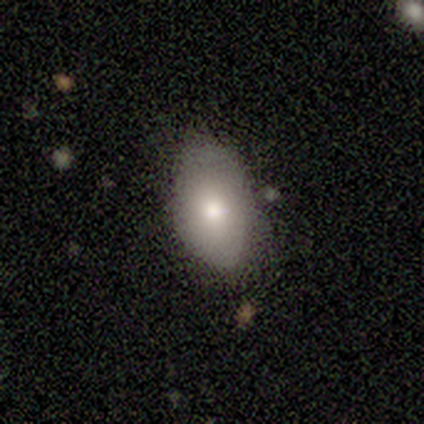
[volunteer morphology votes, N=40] Overall: smooth (72%). How rounded: in between (90%). Merging: none (67%).